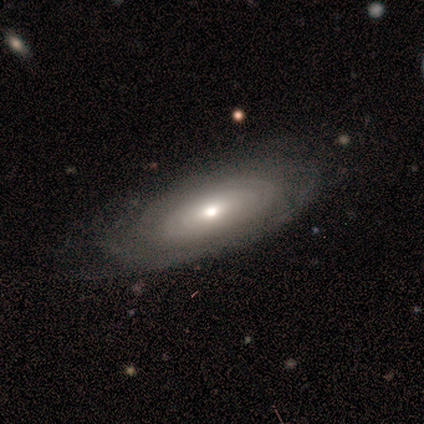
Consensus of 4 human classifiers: smooth-or-featured: featured or disk: 75% | smooth: 25% | star or artifact: 0%
  disk-edge-on: no: 100% | yes: 0%
    bar: no: 67% | weak: 33% | strong: 0%
    has-spiral-arms: no: 67% | yes: 33%
    bulge-size: moderate: 67% | small: 33% | dominant: 0% | large: 0% | none: 0%
  merging: none: 100% | minor disturbance: 0% | major disturbance: 0% | merger: 0%